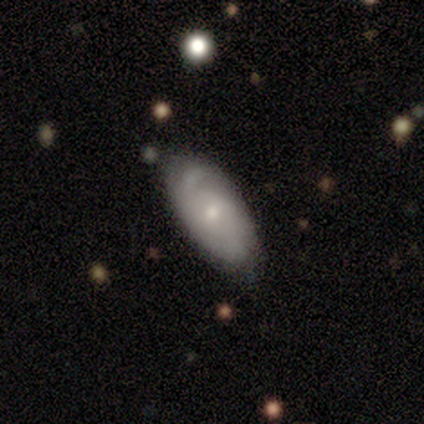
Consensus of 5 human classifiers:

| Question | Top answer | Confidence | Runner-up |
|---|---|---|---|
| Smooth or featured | featured or disk | 60% | smooth (40%) |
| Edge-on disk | no | 100% | — |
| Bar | no | 67% | weak (33%) |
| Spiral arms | yes | 67% | no (33%) |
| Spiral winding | tight | 50% | tied: loose (50%) |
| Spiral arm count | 1 | 50% | tied: can't tell (50%) |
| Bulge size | small | 67% | moderate (33%) |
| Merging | none | 60% | minor disturbance (40%) |